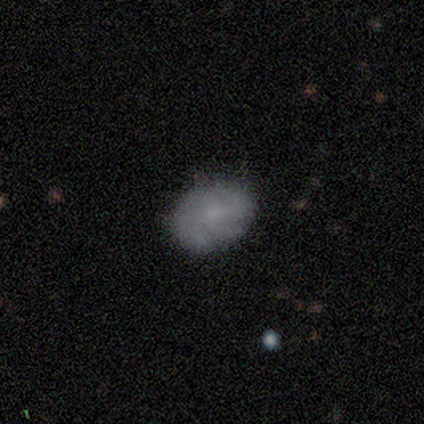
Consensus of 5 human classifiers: This appears to be a featured or disk galaxy (60%) with a weak bar (67%), 2 (33%, tied with 3 and can't tell) tight (33%, tied with medium and loose) spiral arms (100%) and a large central bulge (33%, tied with moderate and none). Merging: none (60%).